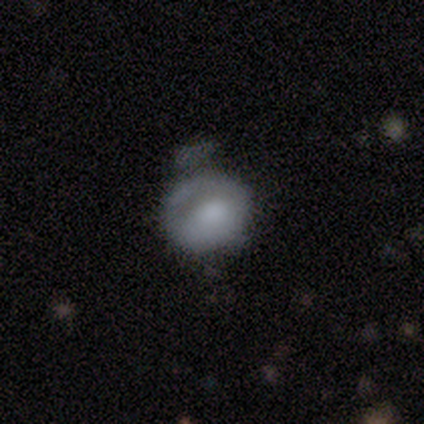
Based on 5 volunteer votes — Smooth or featured? 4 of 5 (80%) said smooth. How rounded? 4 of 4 (100%) said round. Merging? 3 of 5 (60%) said none.